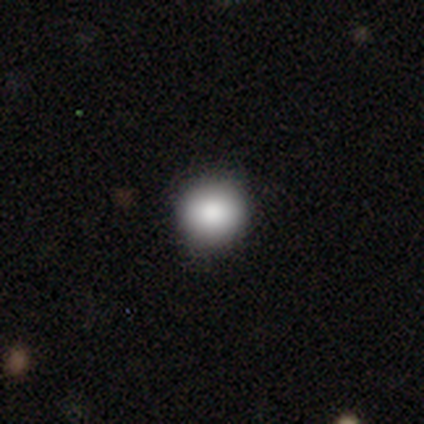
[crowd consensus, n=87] Q: Smooth or featured?
A: smooth (86%); runner-up: star or artifact (9%)
Q: How rounded?
A: round (89%); runner-up: in between (11%)
Q: Merging?
A: none (89%); runner-up: minor disturbance (9%)